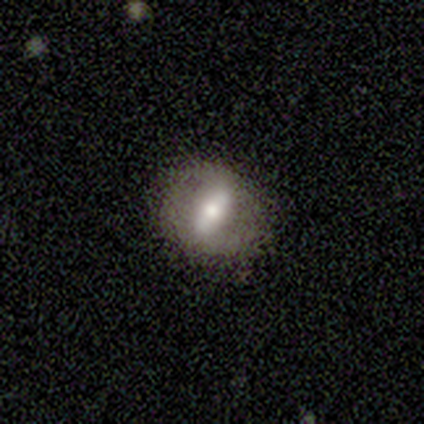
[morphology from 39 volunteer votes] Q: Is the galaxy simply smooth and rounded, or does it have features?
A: smooth — 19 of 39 (49%).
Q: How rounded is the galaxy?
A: in between — 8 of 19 (42%).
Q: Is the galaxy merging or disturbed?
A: none — 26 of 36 (72%).